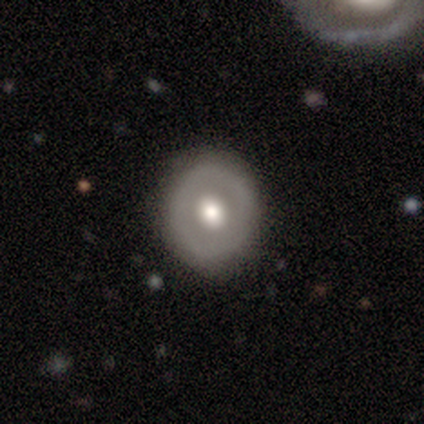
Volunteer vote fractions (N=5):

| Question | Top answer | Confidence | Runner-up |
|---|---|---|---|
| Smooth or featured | smooth | 60% | featured or disk (40%) |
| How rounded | round | 67% | in between (33%) |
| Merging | none | 80% | major disturbance (20%) |